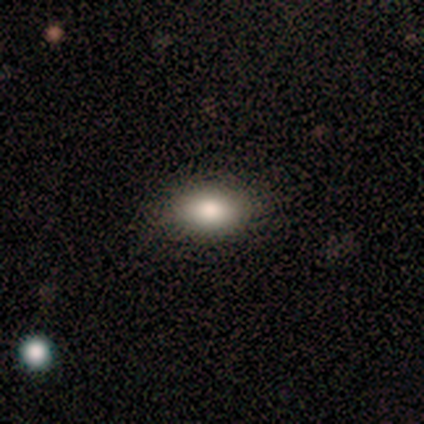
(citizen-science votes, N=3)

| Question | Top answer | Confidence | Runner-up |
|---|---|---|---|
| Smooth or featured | smooth | 100% | — |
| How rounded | in between | 100% | — |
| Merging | none | 100% | — |